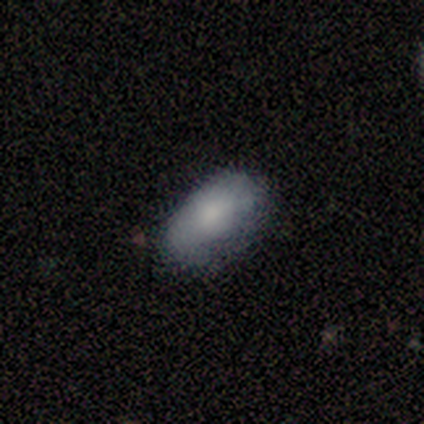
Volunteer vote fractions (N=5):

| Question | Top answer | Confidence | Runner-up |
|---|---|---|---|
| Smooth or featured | smooth | 80% | featured or disk (20%) |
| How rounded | in between | 100% | — |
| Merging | none | 60% | minor disturbance (20%) |